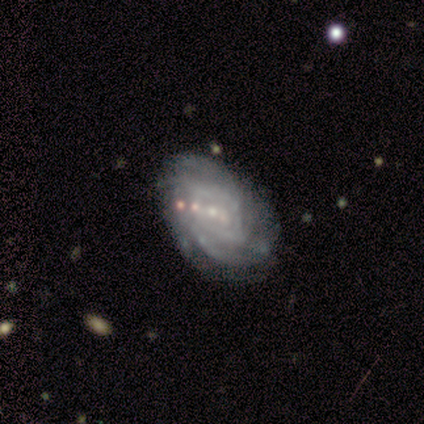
A featured or disk galaxy (100%) with no bar (80%), more than 4 (50%, tied with can't tell) tight (75%) spiral arms (80%) and no central bulge (60%). Merging: none (100%).